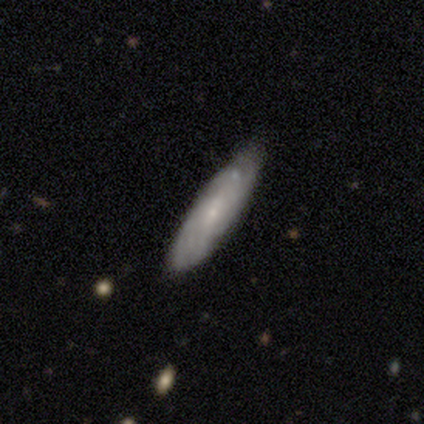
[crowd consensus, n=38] featured or disk 66%, smooth 26%, star or artifact 8%. Down the decision tree: edge-on disk — no (76%); bar — no (68%); spiral arms — yes (79%); spiral arm count — can't tell (87%); spiral winding — tight (60%); bulge size — small (95%); merging — none (66%).